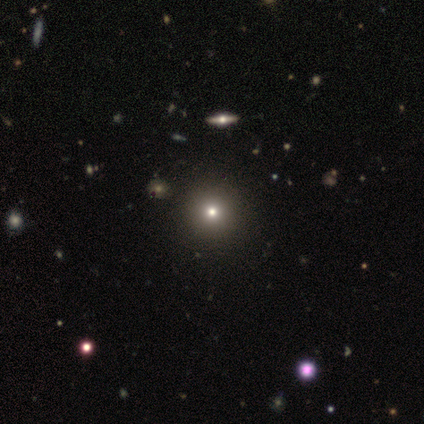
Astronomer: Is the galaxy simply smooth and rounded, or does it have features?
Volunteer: smooth — 55%.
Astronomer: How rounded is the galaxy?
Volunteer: round — 95%.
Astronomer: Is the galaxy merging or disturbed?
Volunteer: none — 76%.